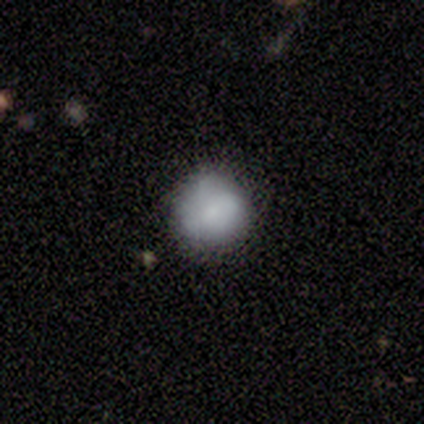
Q: Smooth or featured?
A: smooth (76%); runner-up: featured or disk (13%)
Q: How rounded?
A: round (86%); runner-up: in between (14%)
Q: Merging?
A: none (79%); runner-up: minor disturbance (18%)